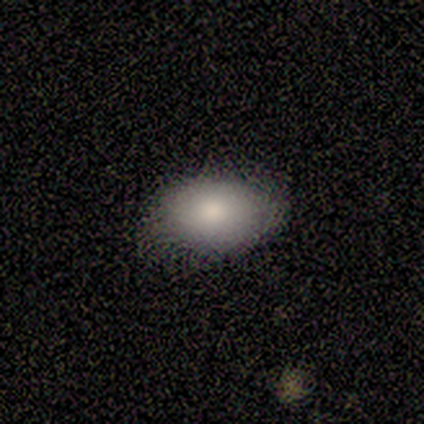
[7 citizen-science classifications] A smooth galaxy with no disk features (100%) that is in between round and cigar-shaped (100%). Merging: none (57%).